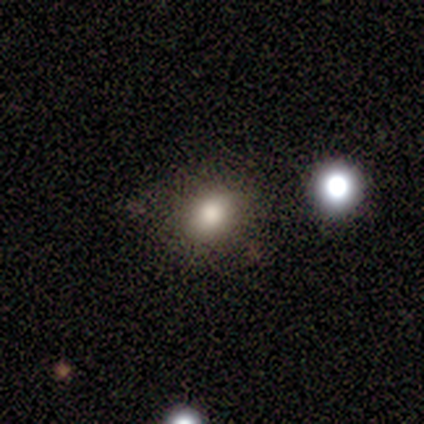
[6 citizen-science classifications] This is clearly a smooth galaxy (100%). How rounded: possibly round (50%, tied with in between). Merging: possibly none (50%, tied with minor disturbance).